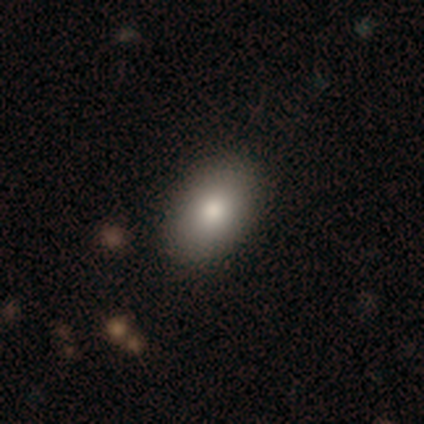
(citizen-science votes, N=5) Q: Smooth or featured?
A: smooth (80%); runner-up: featured or disk (20%)
Q: How rounded?
A: in between (100%)
Q: Merging?
A: none (100%)